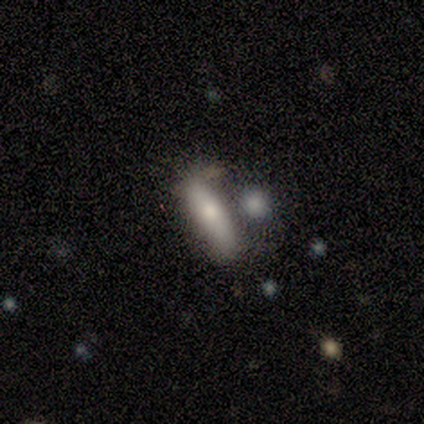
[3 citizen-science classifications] Overall: smooth (100%). How rounded: cigar-shaped (67%; in between 33%). Merging: none (100%).